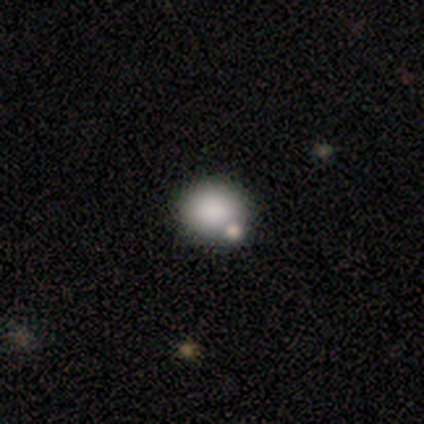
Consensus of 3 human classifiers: Q: Smooth or featured?
A: smooth (67%); runner-up: featured or disk (33%)
Q: How rounded?
A: round (50%); tied with: in between (50%)
Q: Merging?
A: none (100%)